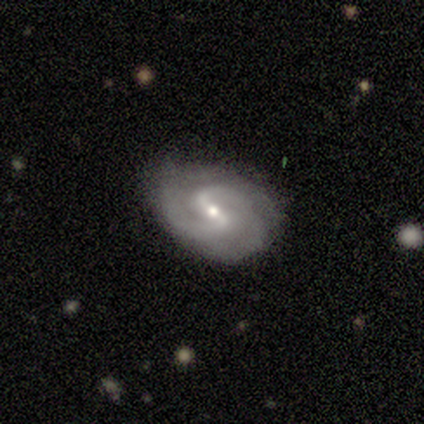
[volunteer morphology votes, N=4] type=featured or disk (100%); edge-on=no (100%); bar=strong (50%, tied with weak); spiral arms=yes (75%); winding=medium (67%); arm count=can't tell (67%); bulge=small (75%); merging=none (100%).